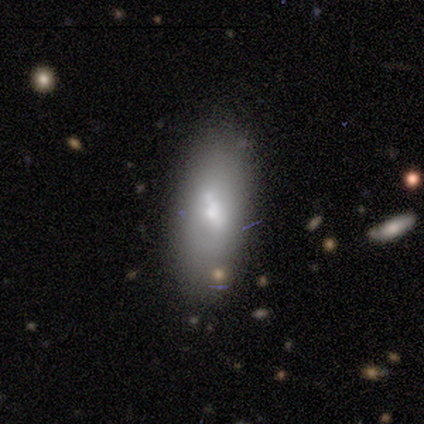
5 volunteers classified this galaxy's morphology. Volunteers were most divided on "edge-on disk" (2-way tie): yes: 50%, no: 50%. More confident: edge-on bulge — rounded (100%); smooth or featured — featured or disk (80%); merging — none (60%).